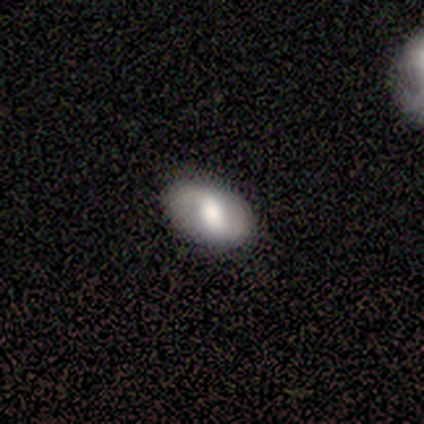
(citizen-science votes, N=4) This is likely a smooth galaxy (75%). How rounded: clearly in between (100%). Merging: likely none (75%).